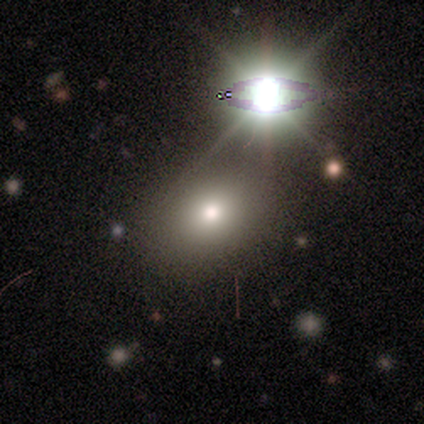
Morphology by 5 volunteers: smooth_or_featured: smooth (p=0.60) [alt: star or artifact p=0.40]
how_rounded: round (p=0.67) [alt: in between p=0.33]
merging: none (p=0.33) [tied with: minor disturbance p=0.33, merger p=0.33]